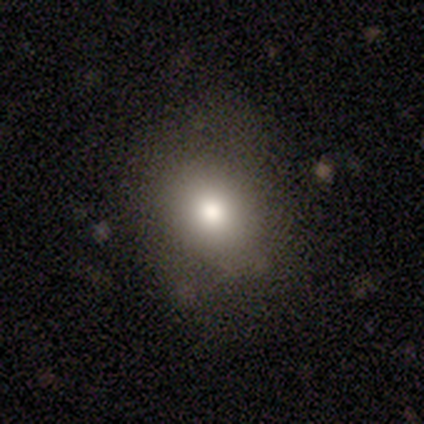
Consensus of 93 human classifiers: smooth 73%, star or artifact 14%, featured or disk 13%. Down the decision tree: how rounded — round (56%); merging — none (72%).